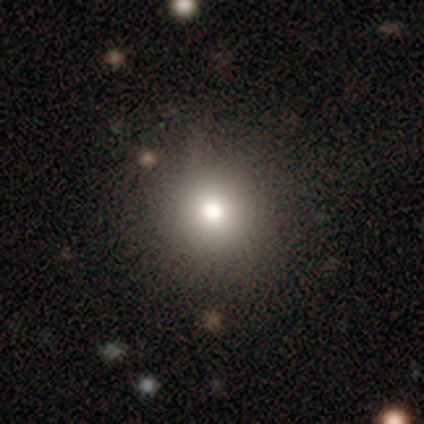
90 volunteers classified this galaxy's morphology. smooth 68%, star or artifact 22%, featured or disk 10%. Down the decision tree: how rounded — round (93%); merging — none (87%).